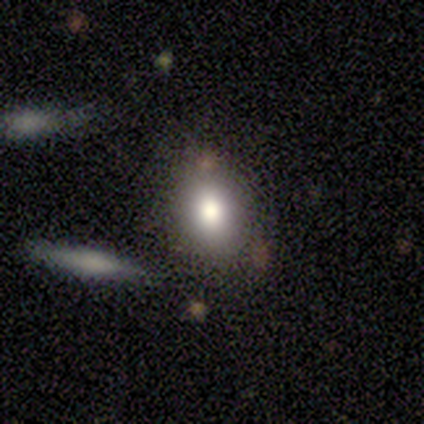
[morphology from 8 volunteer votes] Smooth or featured? smooth (62%)
How rounded? in between (60%)
Merging? none (100%)